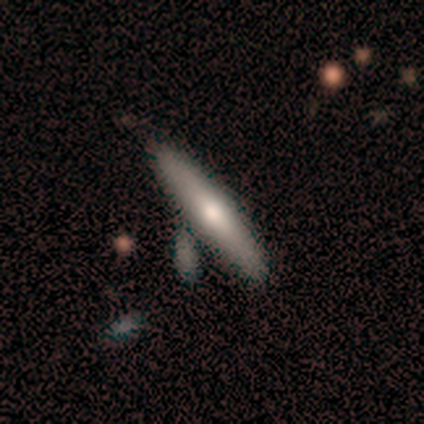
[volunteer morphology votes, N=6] This is possibly a smooth galaxy (50%, tied with featured or disk). How rounded: clearly cigar-shaped (100%). Merging: likely none (67%).